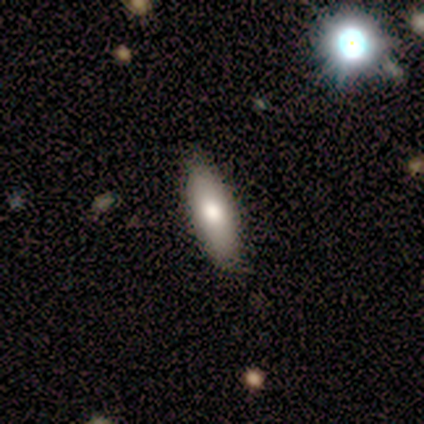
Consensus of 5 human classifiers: This is clearly a smooth galaxy (80%). How rounded: clearly in between (100%). Merging: clearly none (100%).